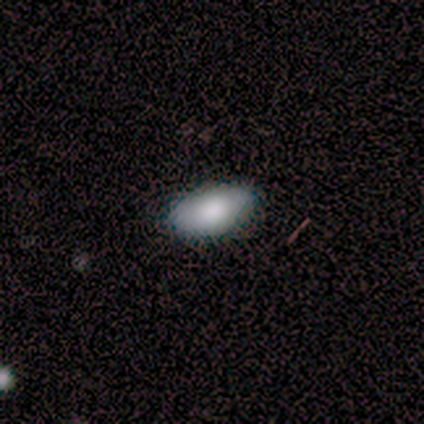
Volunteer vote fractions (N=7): Smooth or featured?
  - smooth: 71% *
  - featured or disk: 14%
  - star or artifact: 14%
How rounded?
  - in between: 100% *
  - round: 0%
  - cigar-shaped: 0%
Merging?
  - none: 83% *
  - minor disturbance: 17%
  - major disturbance: 0%
  - merger: 0%